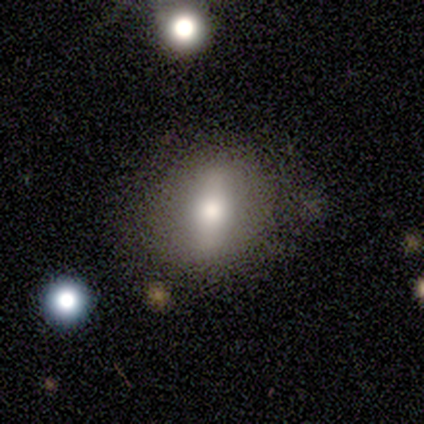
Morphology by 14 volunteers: Smooth or featured? smooth (71%)
How rounded? in between (60%)
Merging? none (79%)